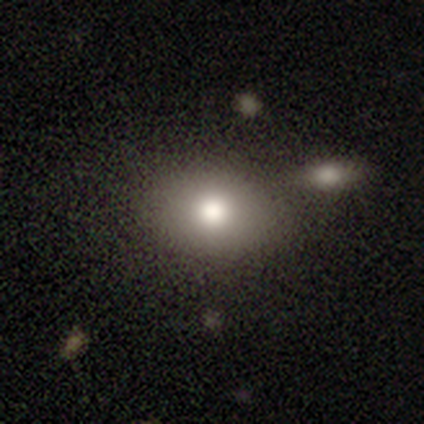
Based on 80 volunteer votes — Smooth or featured? smooth (81%)
How rounded? in between (55%)
Merging? none (35%)